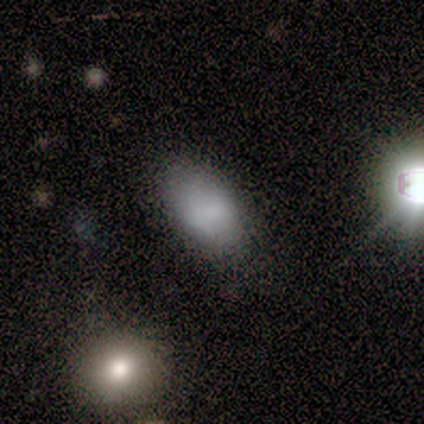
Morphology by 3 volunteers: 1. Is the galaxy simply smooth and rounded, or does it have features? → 67% smooth, 33% featured or disk, 0% star or artifact.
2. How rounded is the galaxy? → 100% in between, 0% round, 0% cigar-shaped.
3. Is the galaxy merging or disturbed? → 100% none, 0% minor disturbance, 0% major disturbance, 0% merger.